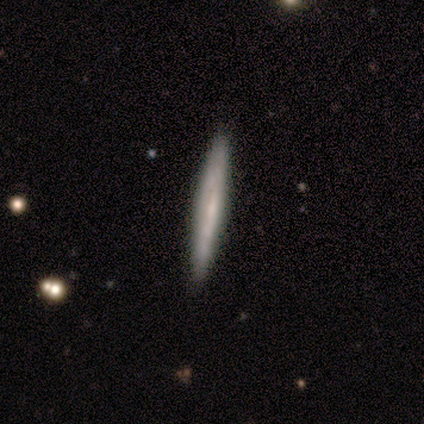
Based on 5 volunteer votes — Smooth or featured? featured or disk (100%)
Edge-on disk? yes (100%)
Edge-on bulge? none (100%)
Merging? none (100%)